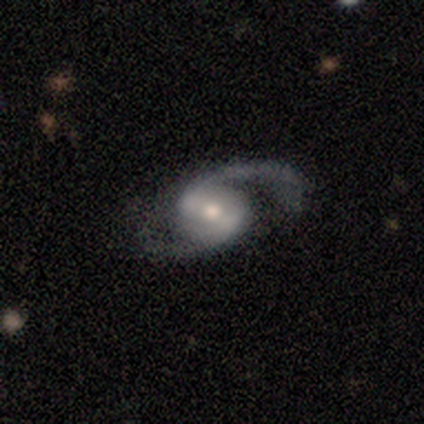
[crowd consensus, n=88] Volunteers were most divided on "spiral winding": medium: 49%, loose: 46%, tight: 5%. Remaining: edge-on disk — no (99%); spiral arms — yes (97%); smooth or featured — featured or disk (90%); spiral arm count — 2 (89%); merging — none (68%); bulge size — moderate (67%); bar — weak (46%).